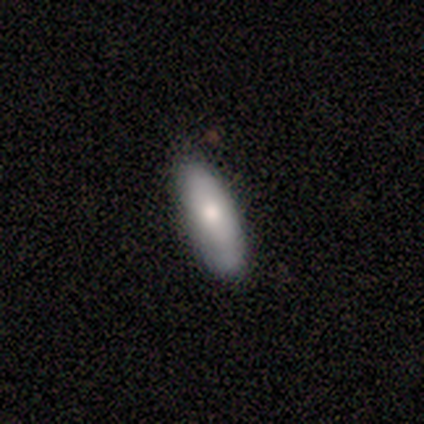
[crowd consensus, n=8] Smooth or featured? featured or disk (62%)
Edge-on disk? no (60%)
Bar? no (100%)
Spiral arms? no (100%)
Bulge size? moderate (67%)
Merging? none (100%)